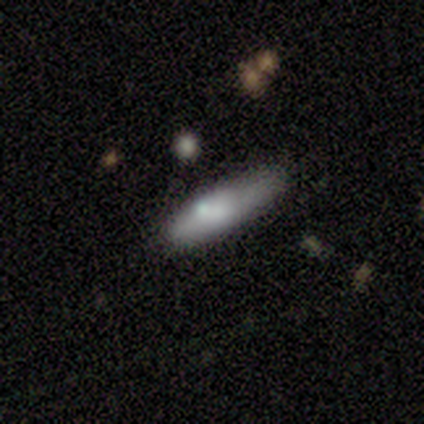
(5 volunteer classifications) Smooth or featured: featured or disk — 60% (smooth — 40%)
Edge-on disk: no — 100%
Bar: no — 100%
Spiral arms: no — 100%
Bulge size: none — 67% (large — 33%)
Merging: none — 40% (tied with minor disturbance — 40%)